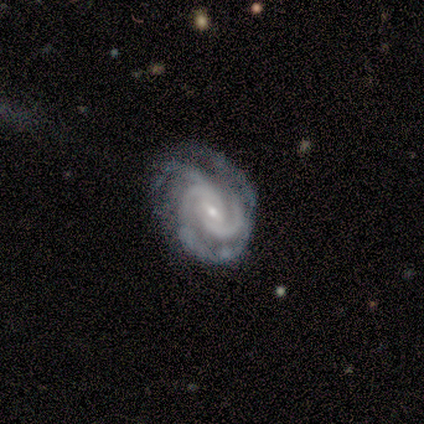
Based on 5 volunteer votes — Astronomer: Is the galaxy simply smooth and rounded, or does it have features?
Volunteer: featured or disk — 100%.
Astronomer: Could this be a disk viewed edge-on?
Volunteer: no — 100%.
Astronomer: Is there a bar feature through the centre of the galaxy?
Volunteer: weak — 80%.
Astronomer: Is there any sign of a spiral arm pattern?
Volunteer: yes — 100%.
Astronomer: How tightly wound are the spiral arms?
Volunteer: tight — 100%.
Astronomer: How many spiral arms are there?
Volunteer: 3 — 60%.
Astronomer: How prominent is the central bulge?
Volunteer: small — 100%.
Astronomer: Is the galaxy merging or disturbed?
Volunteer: none — 80%.